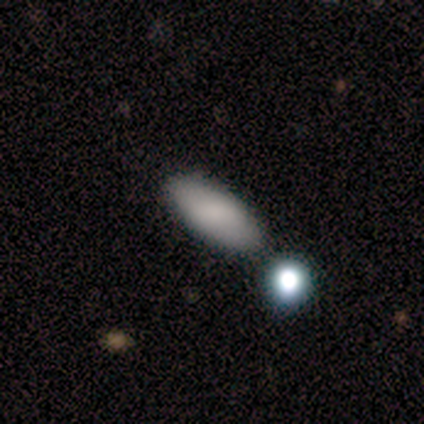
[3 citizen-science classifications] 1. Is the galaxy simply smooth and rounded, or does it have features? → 100% smooth, 0% featured or disk, 0% star or artifact.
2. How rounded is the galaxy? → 67% cigar-shaped, 33% in between, 0% round.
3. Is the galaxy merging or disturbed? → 100% none, 0% minor disturbance, 0% major disturbance, 0% merger.